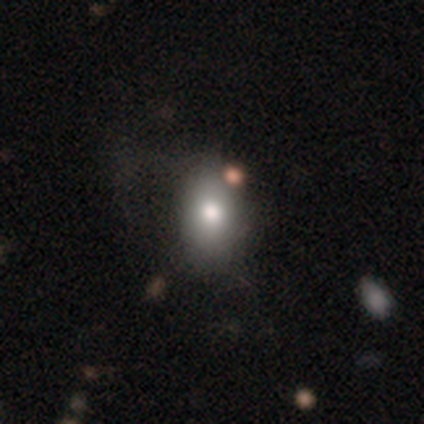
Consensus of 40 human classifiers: Smooth or featured?
  - smooth: 80% *
  - featured or disk: 12%
  - star or artifact: 8%
How rounded?
  - in between: 75% *
  - round: 25%
  - cigar-shaped: 0%
Merging?
  - none: 38% *
  - minor disturbance: 16%
  - merger: 16%
  - major disturbance: 3%